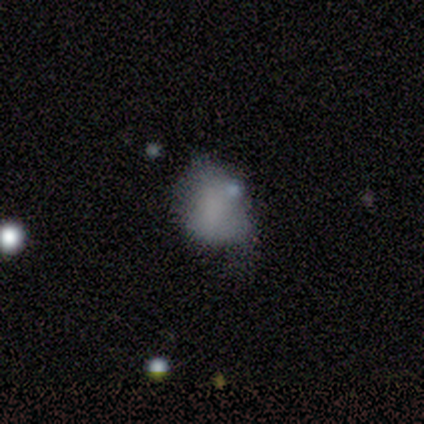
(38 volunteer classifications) Smooth or featured? smooth (50%)
How rounded? in between (58%)
Merging? minor disturbance (30%)